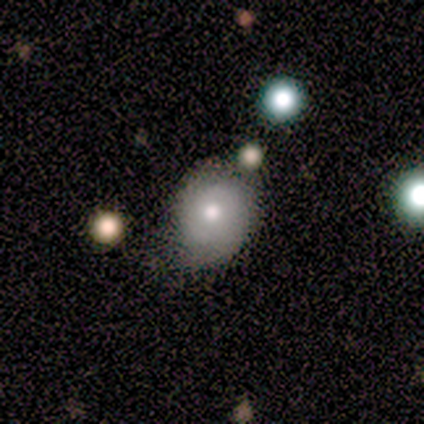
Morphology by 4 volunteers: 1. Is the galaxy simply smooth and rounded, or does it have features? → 75% featured or disk, 25% smooth, 0% star or artifact.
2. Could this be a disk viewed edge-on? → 100% no, 0% yes.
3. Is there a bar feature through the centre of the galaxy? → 100% no, 0% strong, 0% weak.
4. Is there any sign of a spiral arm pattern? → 100% yes, 0% no.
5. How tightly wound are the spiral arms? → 67% medium, 33% tight, 0% loose.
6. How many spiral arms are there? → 67% 2, 33% 1, 0% 3, 0% 4, 0% more than 4, 0% can't tell.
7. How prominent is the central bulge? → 67% moderate, 33% small, 0% dominant, 0% large, 0% none.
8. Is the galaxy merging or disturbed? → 75% none, 25% minor disturbance, 0% major disturbance, 0% merger.